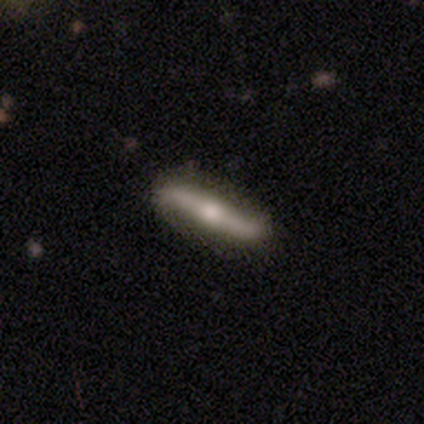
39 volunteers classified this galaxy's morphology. A featured or disk galaxy (79%) viewed edge-on (55%) with a rounded central bulge (94%). Merging: none (87%).